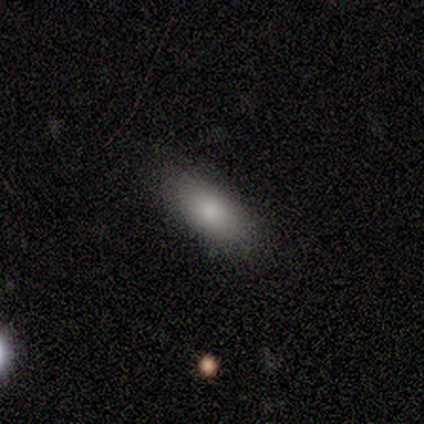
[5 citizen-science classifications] Smooth or featured? 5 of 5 (100%) said smooth. How rounded? 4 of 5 (80%) said in between. Merging? 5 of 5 (100%) said none.